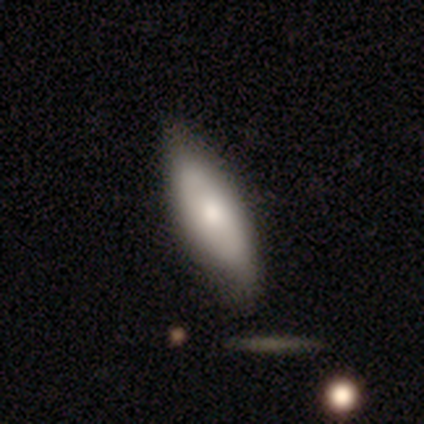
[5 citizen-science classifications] Q: Smooth or featured?
A: smooth (60%); runner-up: featured or disk (40%)
Q: How rounded?
A: round (33%); tied with: in between (33%); cigar-shaped (33%)
Q: Merging?
A: none (100%)